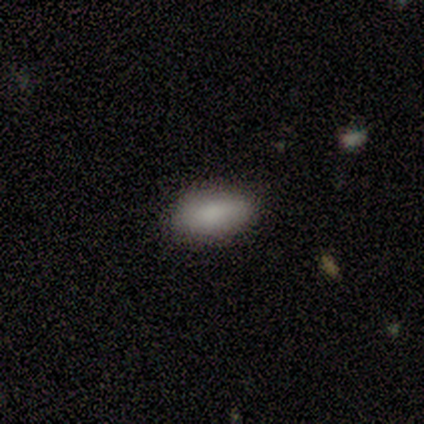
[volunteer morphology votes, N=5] smooth_or_featured: smooth (p=1.00)
how_rounded: in between (p=1.00)
merging: none (p=1.00)